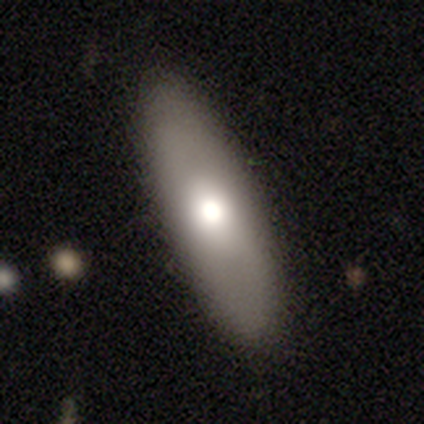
Q: Smooth or featured?
A: smooth (62%); runner-up: featured or disk (31%)
Q: How rounded?
A: in between (50%); tied with: cigar-shaped (50%)
Q: Merging?
A: none (83%); runner-up: minor disturbance (8%)